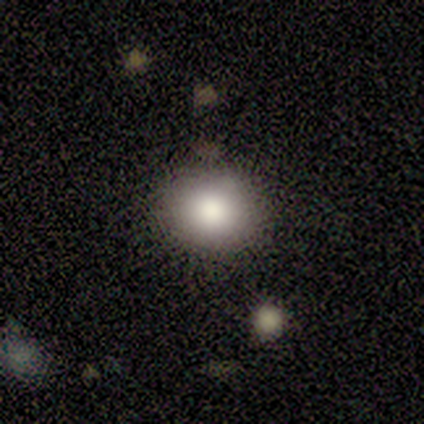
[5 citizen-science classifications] Smooth or featured? smooth (100%)
How rounded? round (100%)
Merging? none (100%)